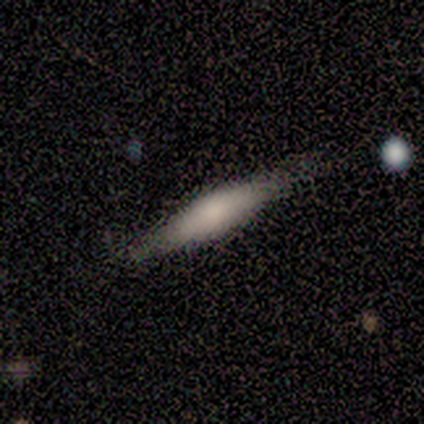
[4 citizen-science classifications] Smooth or featured: smooth — 100%
How rounded: in between — 50% (tied with cigar-shaped — 50%)
Merging: none — 75% (merger — 25%)